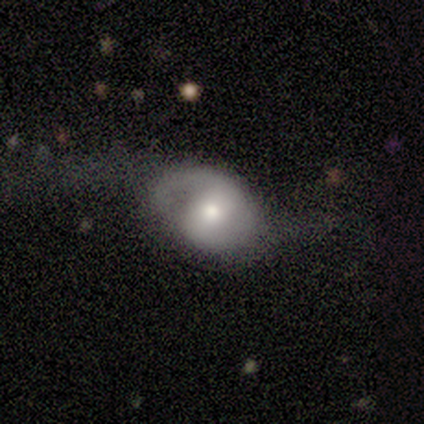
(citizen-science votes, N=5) Smooth or featured: featured or disk — 100%
Edge-on disk: no — 100%
Bar: weak — 40% (tied with no — 40%)
Spiral arms: yes — 60% (no — 40%)
Spiral winding: loose — 100%
Spiral arm count: 2 — 100%
Bulge size: moderate — 100%
Merging: major disturbance — 80% (minor disturbance — 20%)